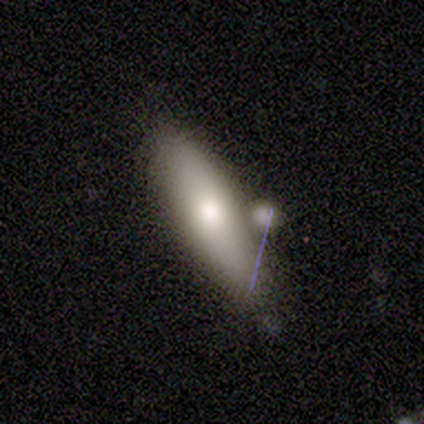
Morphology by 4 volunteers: A smooth galaxy with no disk features (100%) that is in between round and cigar-shaped (75%).

Vote fractions:
- Smooth or featured? smooth: 100% / featured or disk: 0% / star or artifact: 0%
- How rounded? in between: 75% / cigar-shaped: 25% / round: 0%
- Merging? none: 100% / minor disturbance: 0% / major disturbance: 0% / merger: 0%